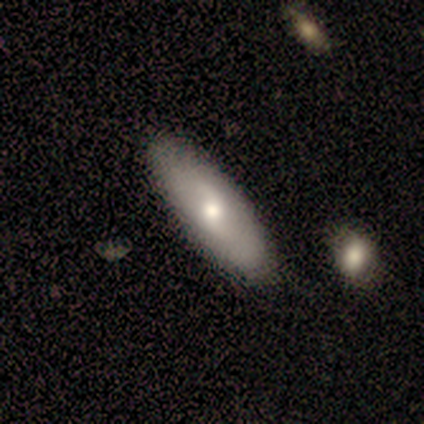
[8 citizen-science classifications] Smooth or featured: featured or disk — 62% (smooth — 38%)
Edge-on disk: no — 80% (yes — 20%)
Bar: no — 75% (weak — 25%)
Spiral arms: yes — 100%
Spiral winding: medium — 75% (loose — 25%)
Spiral arm count: 2 — 75% (can't tell — 25%)
Bulge size: moderate — 50% (tied with small — 50%)
Merging: none — 75% (minor disturbance — 25%)